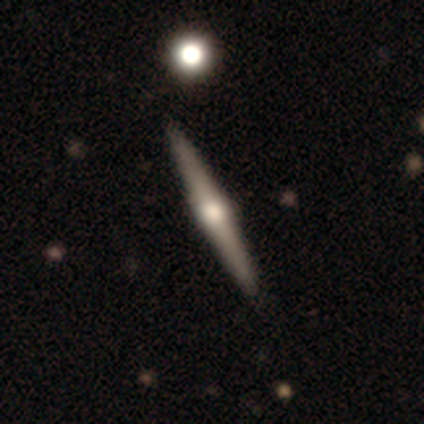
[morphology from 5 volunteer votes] Smooth or featured? featured or disk (80%)
Edge-on disk? yes (100%)
Edge-on bulge? rounded (100%)
Merging? none (100%)